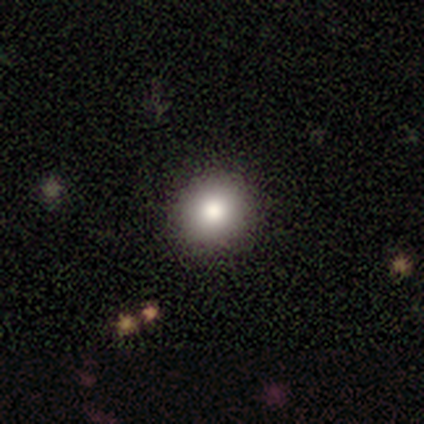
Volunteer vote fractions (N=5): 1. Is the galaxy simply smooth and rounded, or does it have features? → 80% smooth, 20% star or artifact, 0% featured or disk.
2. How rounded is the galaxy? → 100% round, 0% in between, 0% cigar-shaped.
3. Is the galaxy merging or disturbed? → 100% none, 0% minor disturbance, 0% major disturbance, 0% merger.